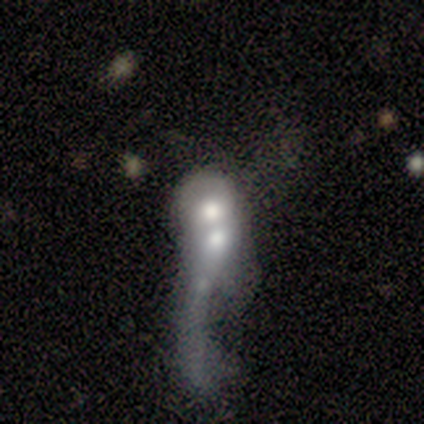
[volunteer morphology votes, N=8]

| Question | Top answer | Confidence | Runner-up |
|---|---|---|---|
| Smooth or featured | featured or disk | 50% | smooth (38%) |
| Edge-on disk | no | 75% | yes (25%) |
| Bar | no | 100% | — |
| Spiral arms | no | 67% | yes (33%) |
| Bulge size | moderate | 67% | large (33%) |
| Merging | merger | 57% | minor disturbance (29%) |